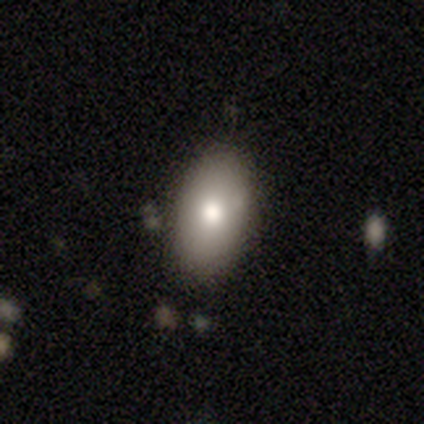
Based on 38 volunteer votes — This is likely a smooth galaxy (76%). How rounded: clearly in between (90%). Merging: clearly none (95%).